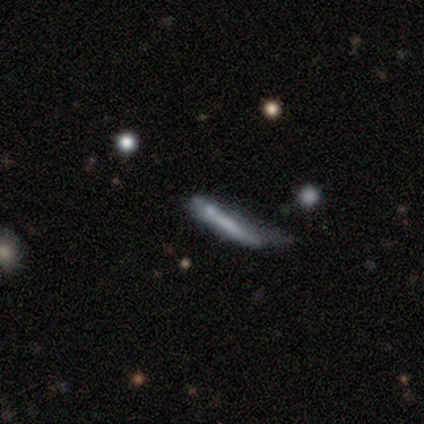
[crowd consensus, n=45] A smooth galaxy with no disk features (44%, tied with featured or disk) that is cigar-shaped (100%). Merging: minor disturbance (42%).